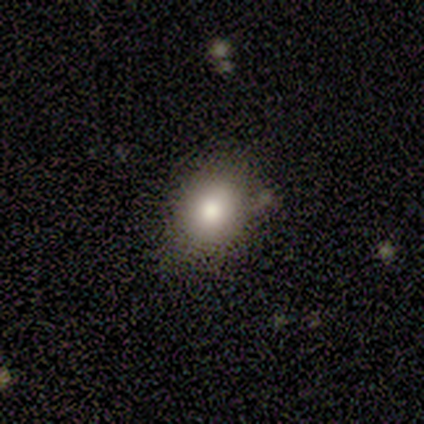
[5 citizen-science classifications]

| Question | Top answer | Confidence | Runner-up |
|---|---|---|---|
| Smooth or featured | smooth | 100% | — |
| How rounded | in between | 80% | round (20%) |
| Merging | none | 100% | — |